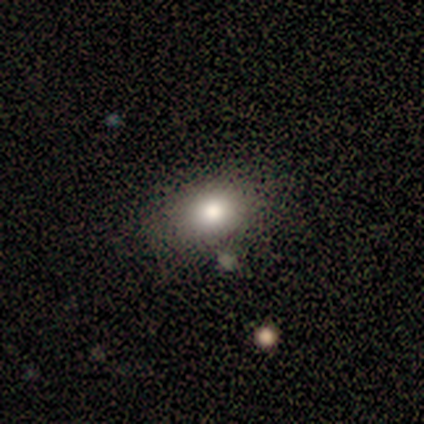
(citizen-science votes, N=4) A smooth galaxy with no disk features (100%) that is round (50%, tied with in between).

Vote fractions:
- Smooth or featured? smooth: 100% / featured or disk: 0% / star or artifact: 0%
- How rounded? round: 50% (tied) / in between: 50% (tied) / cigar-shaped: 0%
- Merging? minor disturbance: 50% / none: 25% / major disturbance: 25% / merger: 0%